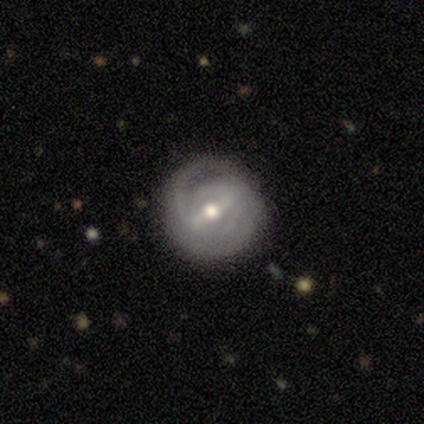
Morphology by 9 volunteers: featured or disk 67%, smooth 33%, star or artifact 0%. Down the decision tree: edge-on disk — no (83%); bar — weak (60%); spiral arms — yes (60%); spiral arm count — 1 (67%); spiral winding — tight (67%); bulge size — moderate (60%); merging — none (44%, tied with major disturbance).